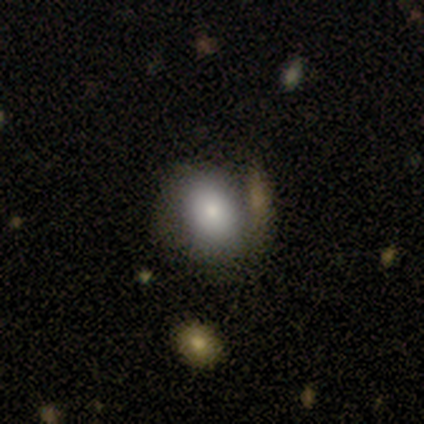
Smooth or featured: smooth — 71% (featured or disk — 22%)
How rounded: in between — 55% (round — 44%)
Merging: none — 31% (merger — 18%)